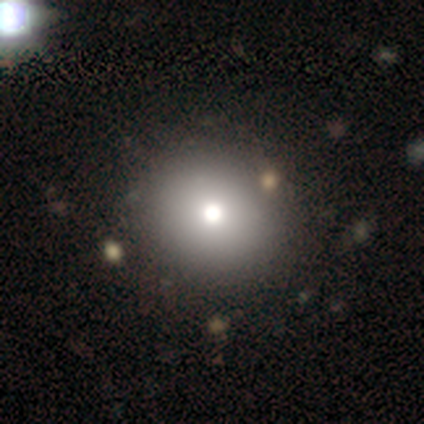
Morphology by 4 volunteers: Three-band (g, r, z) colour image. It shows a smooth galaxy with no disk features (75%) that is round (67%). Merging: none (67%).